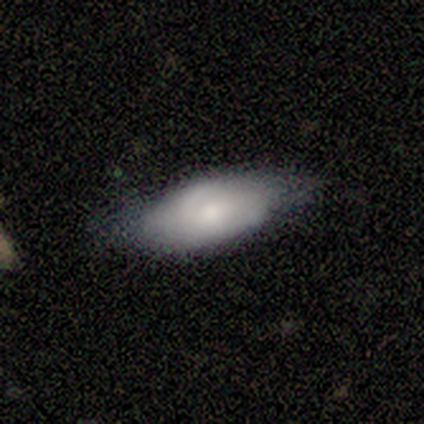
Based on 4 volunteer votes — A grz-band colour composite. It shows a smooth galaxy with no disk features (50%, tied with featured or disk) that is in between round and cigar-shaped (50%, tied with cigar-shaped). Merging: minor disturbance (50%).